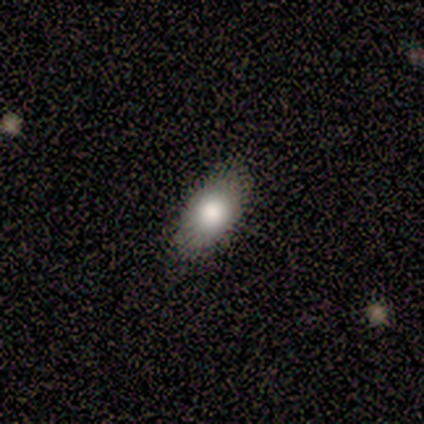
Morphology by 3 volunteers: featured or disk 67%, smooth 33%, star or artifact 0%. Down the decision tree: edge-on disk — yes (50%, tied with no); edge-on bulge — none (100%); merging — none (100%).